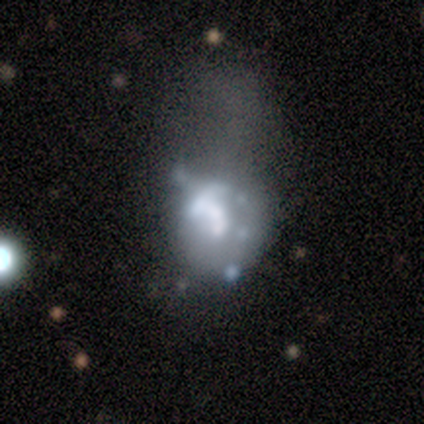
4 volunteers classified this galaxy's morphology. This appears to be a featured or disk galaxy (75%) with no bar (67%), no spiral arms (67%) and a large central bulge (33%, tied with moderate and none). Merging: major disturbance (100%).